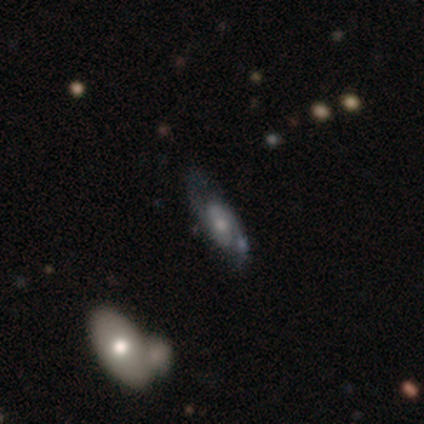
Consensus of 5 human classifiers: Smooth or featured?
  - featured or disk: 80% *
  - star or artifact: 20%
  - smooth: 0%
Edge-on disk?
  - no: 100% *
  - yes: 0%
Bar?
  - no: 100% *
  - strong: 0%
  - weak: 0%
Spiral arms?
  - yes: 100% *
  - no: 0%
Spiral winding?
  - medium: 75% *
  - loose: 25%
  - tight: 0%
Spiral arm count?
  - 2: 100% *
  - 1: 0%
  - 3: 0%
  - 4: 0%
  - more than 4: 0%
  - can't tell: 0%
Bulge size?
  - small: 75% *
  - none: 25%
  - dominant: 0%
  - large: 0%
  - moderate: 0%
Merging?
  - none: 75% *
  - minor disturbance: 25%
  - major disturbance: 0%
  - merger: 0%